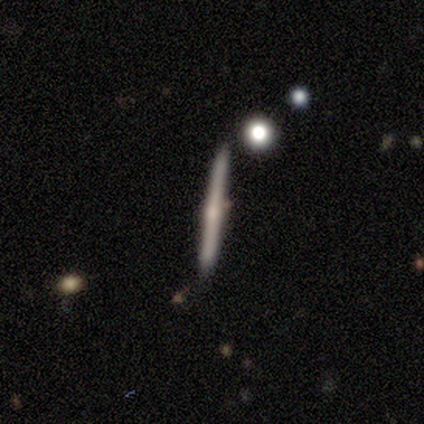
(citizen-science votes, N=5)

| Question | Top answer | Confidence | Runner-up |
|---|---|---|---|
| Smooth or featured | featured or disk | 60% | smooth (40%) |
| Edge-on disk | yes | 67% | no (33%) |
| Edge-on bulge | rounded | 100% | — |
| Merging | none | 60% | minor disturbance (40%) |